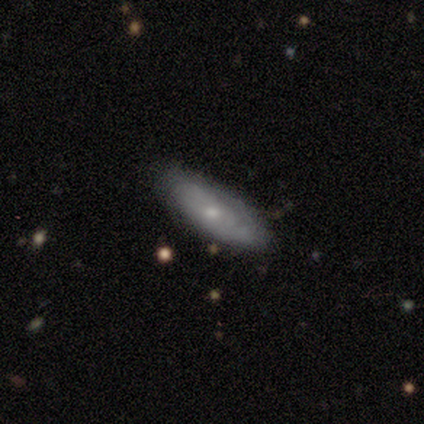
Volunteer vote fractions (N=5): Smooth or featured: featured or disk — 80% (star or artifact — 20%)
Edge-on disk: no — 100%
Bar: no — 100%
Spiral arms: yes — 50% (tied with no — 50%)
Spiral winding: tight — 100%
Spiral arm count: 2 — 50% (tied with can't tell — 50%)
Bulge size: moderate — 50% (tied with small — 50%)
Merging: none — 100%